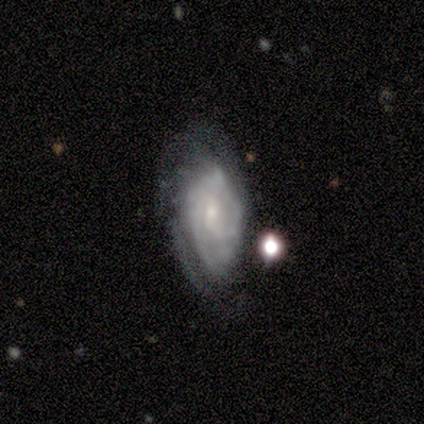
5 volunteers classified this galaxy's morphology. Smooth or featured: featured or disk — 60% (smooth — 20%)
Edge-on disk: no — 100%
Bar: no — 67% (weak — 33%)
Spiral arms: yes — 100%
Spiral winding: tight — 100%
Spiral arm count: 2 — 67% (can't tell — 33%)
Bulge size: small — 67% (moderate — 33%)
Merging: none — 25% (tied with minor disturbance — 25%; major disturbance — 25%; merger — 25%)